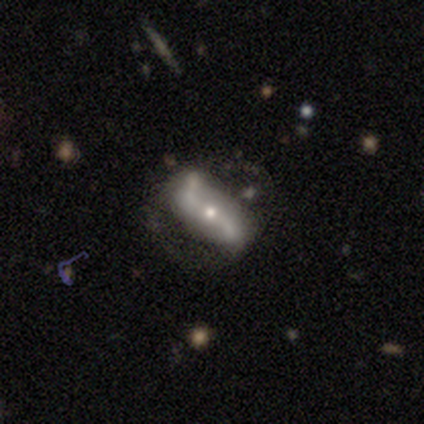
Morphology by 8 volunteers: Volunteers were most divided on "smooth or featured": featured or disk: 50%, smooth: 38%, star or artifact: 12%. More confident: spiral arms — yes (100%); spiral winding — loose (100%); spiral arm count — 2 (100%); bulge size — moderate (100%); edge-on disk — no (75%); bar — no (67%); merging — none (57%).